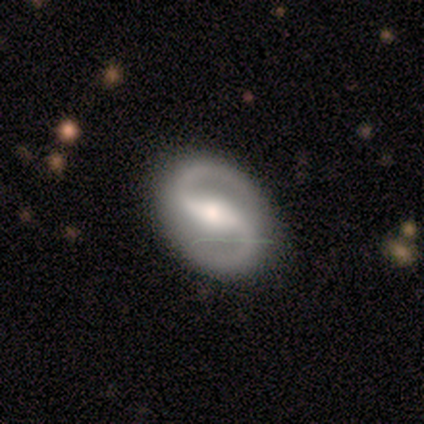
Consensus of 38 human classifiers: Smooth or featured? featured or disk (84%)
Edge-on disk? no (100%)
Bar? strong (69%)
Spiral arms? yes (100%)
Spiral winding? medium (56%)
Spiral arm count? 2 (97%)
Bulge size? moderate (56%)
Merging? none (89%)